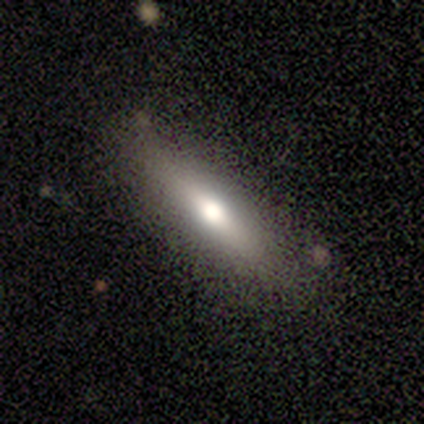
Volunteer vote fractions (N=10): A smooth galaxy with no disk features (50%) that is cigar-shaped (100%).

Vote fractions:
- Smooth or featured? smooth: 50% / featured or disk: 40% / star or artifact: 10%
- How rounded? cigar-shaped: 100% / round: 0% / in between: 0%
- Merging? none: 67% / minor disturbance: 22% / major disturbance: 11% / merger: 0%